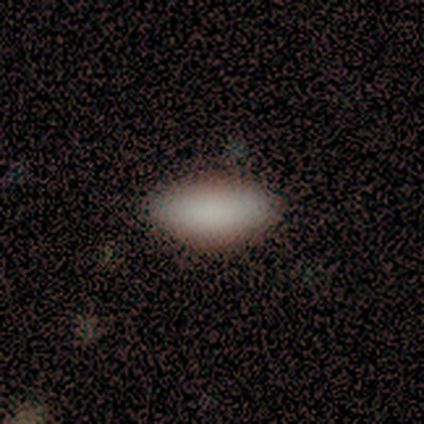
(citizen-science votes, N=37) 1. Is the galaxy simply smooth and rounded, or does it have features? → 84% smooth, 14% featured or disk, 3% star or artifact.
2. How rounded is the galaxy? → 87% in between, 13% cigar-shaped, 0% round.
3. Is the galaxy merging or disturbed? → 83% none, 14% minor disturbance, 3% major disturbance, 0% merger.